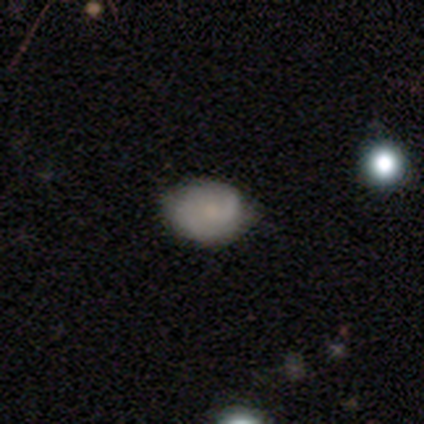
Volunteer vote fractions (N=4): Smooth or featured?
  - featured or disk: 75% *
  - smooth: 25%
  - star or artifact: 0%
Edge-on disk?
  - no: 100% *
  - yes: 0%
Bar?
  - no: 67% *
  - weak: 33%
  - strong: 0%
Spiral arms?
  - yes: 67% *
  - no: 33%
Spiral winding?
  - loose: 100% *
  - tight: 0%
  - medium: 0%
Spiral arm count?
  - 1: 50% * (tied)
  - 2: 50% * (tied)
  - 3: 0%
  - 4: 0%
  - more than 4: 0%
  - can't tell: 0%
Bulge size?
  - moderate: 33% * (tied)
  - small: 33% * (tied)
  - none: 33% * (tied)
  - dominant: 0%
  - large: 0%
Merging?
  - none: 100% *
  - minor disturbance: 0%
  - major disturbance: 0%
  - merger: 0%